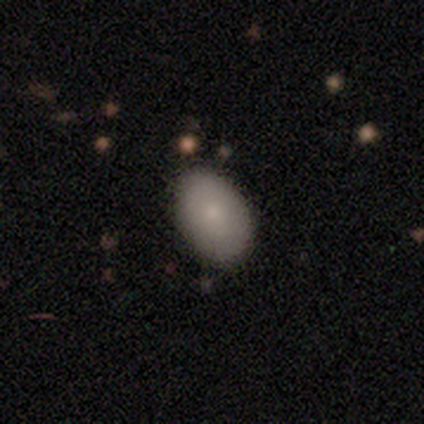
Smooth or featured: smooth — 80% (featured or disk — 20%)
How rounded: in between — 75% (round — 25%)
Merging: none — 80% (minor disturbance — 20%)